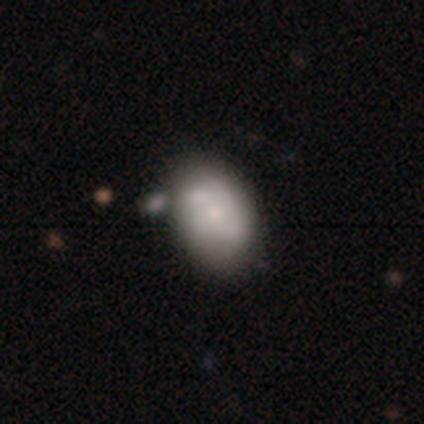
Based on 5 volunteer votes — Smooth or featured? 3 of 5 (60%) said featured or disk. Edge-on disk? 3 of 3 (100%) said no. Bar? 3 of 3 (100%) said no. Spiral arms? 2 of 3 (67%) said no. Bulge size? 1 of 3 (33%, tied with small and none) said moderate. Merging? 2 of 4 (50%, tied with merger) said none.